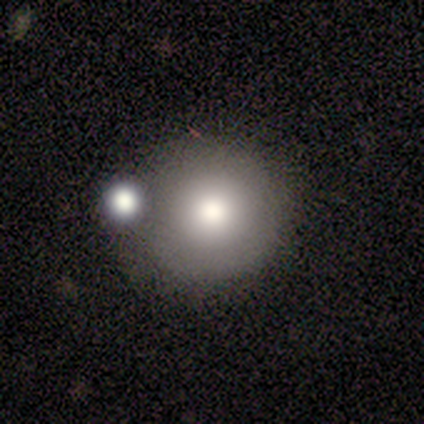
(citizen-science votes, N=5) Morphology: type=smooth (80%); roundness=round (100%); merging=none (40%, tied with merger).